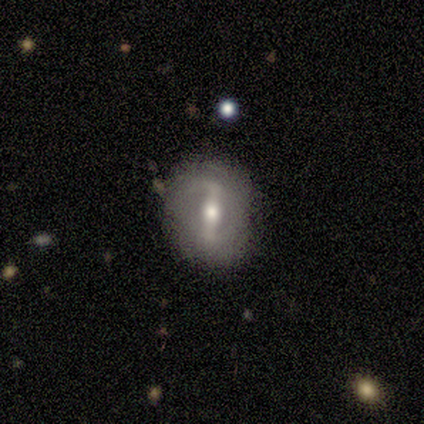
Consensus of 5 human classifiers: A smooth galaxy with no disk features (40%, tied with featured or disk) that is round (100%). Merging: none (50%).